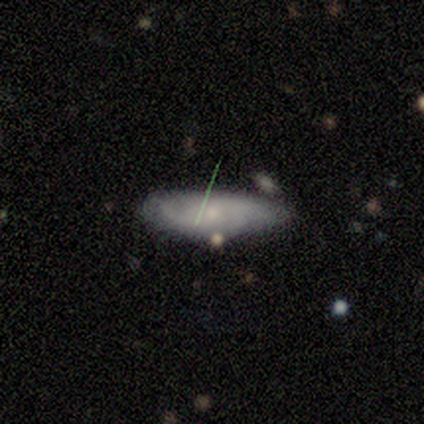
smooth_or_featured: smooth (p=0.50) [tied with: featured or disk p=0.50]
how_rounded: in between (p=0.67) [alt: cigar-shaped p=0.33]
merging: none (p=0.92) [alt: minor disturbance p=0.08]